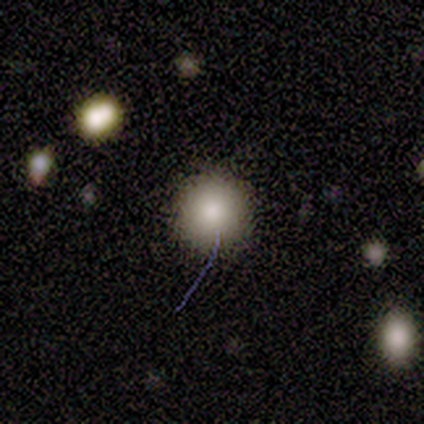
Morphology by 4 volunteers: Q: Smooth or featured?
A: smooth (100%)
Q: How rounded?
A: round (100%)
Q: Merging?
A: none (100%)